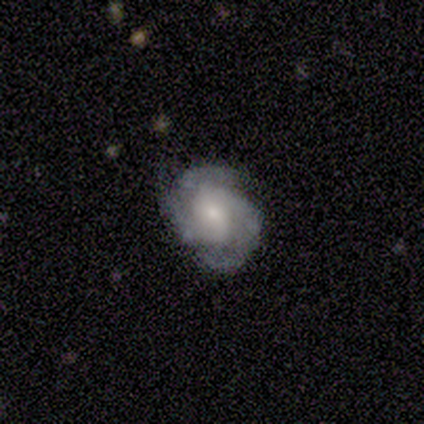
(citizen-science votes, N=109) Q: Smooth or featured?
A: featured or disk (82%); runner-up: smooth (11%)
Q: Edge-on disk?
A: no (94%); runner-up: yes (6%)
Q: Bar?
A: no (60%); runner-up: weak (33%)
Q: Spiral arms?
A: yes (96%); runner-up: no (4%)
Q: Spiral winding?
A: tight (53%); runner-up: medium (41%)
Q: Spiral arm count?
A: 2 (40%); tied with: 3 (40%)
Q: Bulge size?
A: small (46%); runner-up: moderate (37%)
Q: Merging?
A: none (69%); runner-up: minor disturbance (27%)